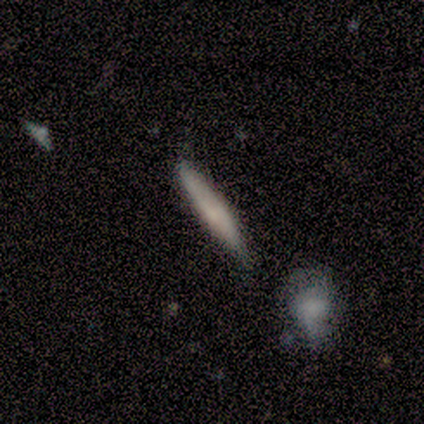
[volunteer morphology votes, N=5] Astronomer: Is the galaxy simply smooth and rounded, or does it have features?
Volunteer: smooth — 80%.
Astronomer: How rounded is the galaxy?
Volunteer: cigar-shaped — 100%.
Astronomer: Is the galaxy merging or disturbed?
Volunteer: none — 80%.